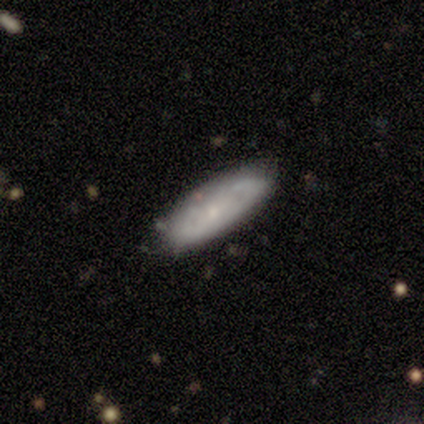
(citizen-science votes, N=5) star or artifact 60%, featured or disk 40%, smooth 0%.